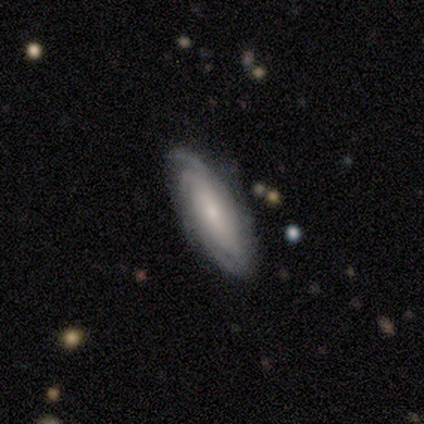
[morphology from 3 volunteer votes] Overall: featured or disk (100%). Edge-on disk: no (67%; yes 33%). Bar: weak (50%, tied with no). Spiral arms: yes (100%). Spiral arm count: can't tell (100%). Spiral winding: tight (50%, tied with medium). Bulge size: large (50%, tied with moderate). Merging: minor disturbance (67%; none 33%).